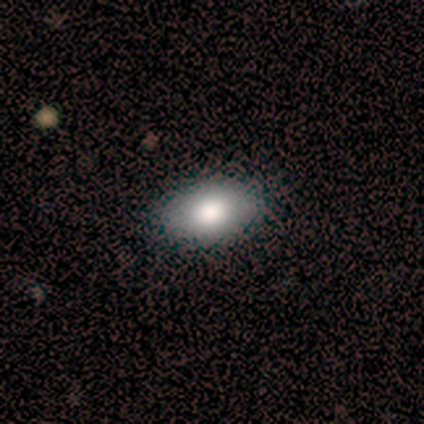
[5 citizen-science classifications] This appears to be a smooth galaxy with no disk features (100%) that is in between round and cigar-shaped (60%). Merging: none (100%).